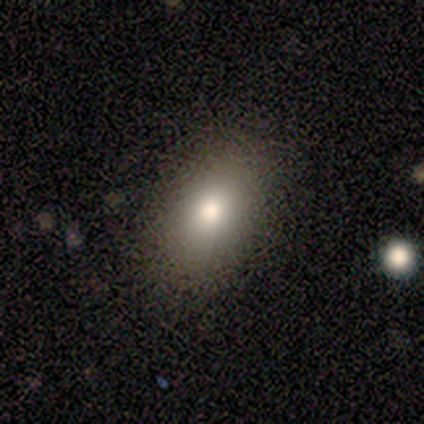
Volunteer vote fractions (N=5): Smooth or featured? 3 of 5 (60%) said smooth. How rounded? 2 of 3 (67%) said in between. Merging? 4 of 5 (80%) said none.